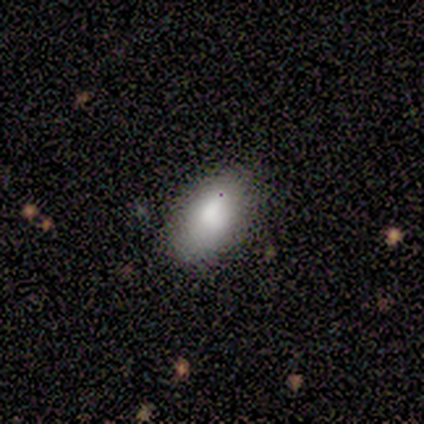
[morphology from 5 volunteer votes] A smooth galaxy with no disk features (60%) that is in between round and cigar-shaped (100%).

Vote fractions:
- Smooth or featured? smooth: 60% / featured or disk: 20% / star or artifact: 20%
- How rounded? in between: 100% / round: 0% / cigar-shaped: 0%
- Merging? none: 75% / minor disturbance: 25% / major disturbance: 0% / merger: 0%